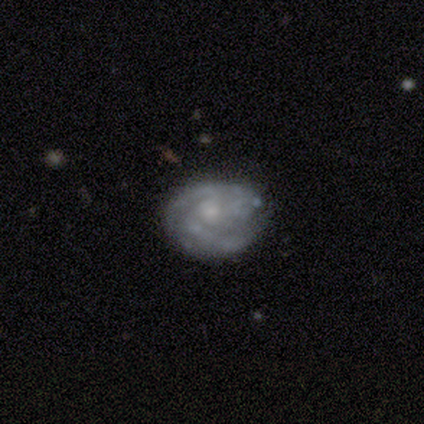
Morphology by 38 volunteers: This is likely a featured or disk galaxy (79%). It is clearly not viewed edge-on (100%). Bar: clearly no (80%). Spiral arm pattern: clearly yes (87%). Spiral arm count: possibly 3 (46%). Spiral winding: likely tight (62%). Central bulge: likely small (63%). Merging: likely none (72%).